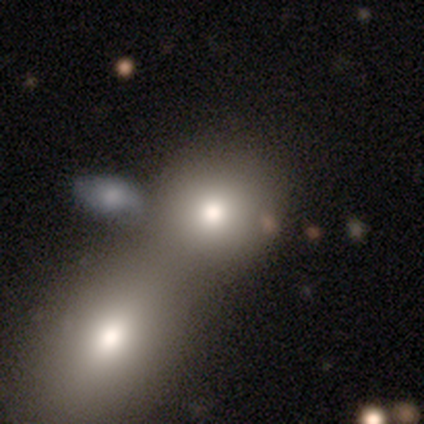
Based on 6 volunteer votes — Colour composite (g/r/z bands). It shows a smooth galaxy with no disk features (50%) that is round (100%). Merging: none (60%).